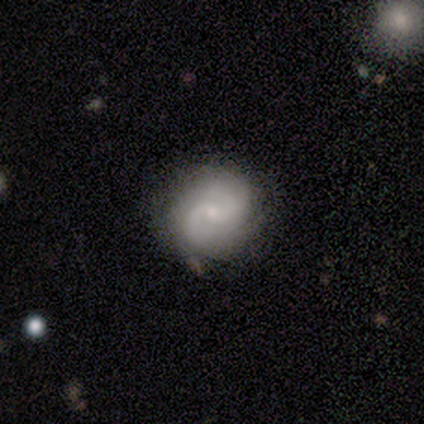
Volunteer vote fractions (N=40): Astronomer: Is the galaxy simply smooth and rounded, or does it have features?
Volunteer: featured or disk — 80%.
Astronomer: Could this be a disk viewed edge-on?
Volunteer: no — 97%.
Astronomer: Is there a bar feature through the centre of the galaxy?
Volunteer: no — 52% (runner-up: weak, 45%).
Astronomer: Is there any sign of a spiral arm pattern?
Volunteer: yes — 97%.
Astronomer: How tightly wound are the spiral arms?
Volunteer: medium — 43% (runner-up: loose, 30%).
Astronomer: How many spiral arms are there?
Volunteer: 2 — 83%.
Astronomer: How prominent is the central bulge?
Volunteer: small — 77%.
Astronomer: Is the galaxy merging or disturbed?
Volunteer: none — 82%.